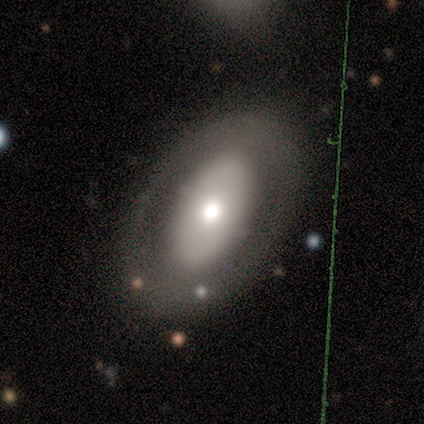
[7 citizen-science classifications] Q: Smooth or featured?
A: featured or disk (71%); runner-up: smooth (29%)
Q: Edge-on disk?
A: no (80%); runner-up: yes (20%)
Q: Bar?
A: no (100%)
Q: Spiral arms?
A: no (75%); runner-up: yes (25%)
Q: Bulge size?
A: moderate (50%); runner-up: large (25%)
Q: Merging?
A: none (71%); runner-up: minor disturbance (14%)